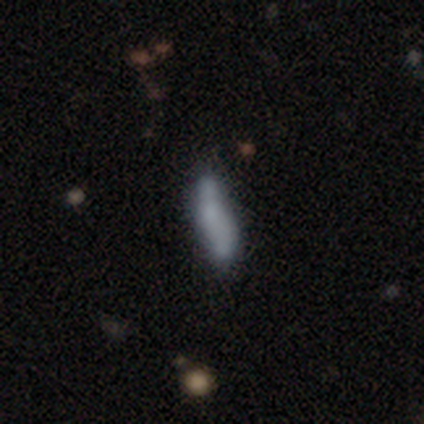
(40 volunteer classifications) Smooth or featured? smooth (55%)
How rounded? in between (55%)
Merging? none (58%)